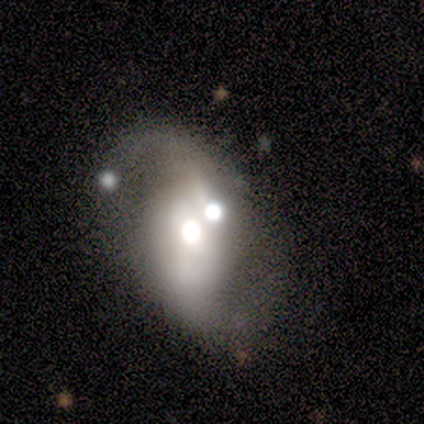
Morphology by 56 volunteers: Volunteers were most divided on "bulge size" (2-way tie): large: 40%, moderate: 40%, dominant: 12%, small: 5%, none: 2%. More confident: edge-on disk — no (95%); spiral arm count — 2 (85%); smooth or featured — featured or disk (75%); spiral winding — loose (69%); spiral arms — yes (65%); bar — no (57%); merging — merger (52%).